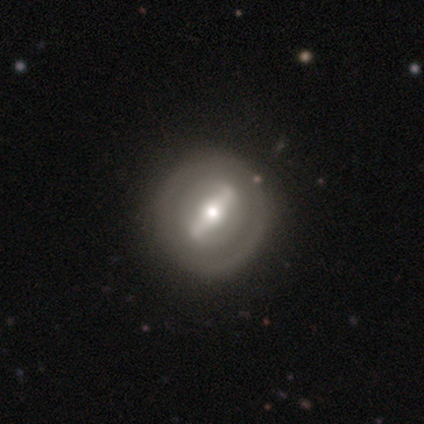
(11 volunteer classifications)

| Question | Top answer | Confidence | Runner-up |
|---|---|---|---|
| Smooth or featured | featured or disk | 64% | smooth (36%) |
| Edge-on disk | no | 86% | yes (14%) |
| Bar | strong | 67% | weak (17%) |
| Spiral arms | no | 67% | yes (33%) |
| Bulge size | moderate | 100% | — |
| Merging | none | 100% | — |